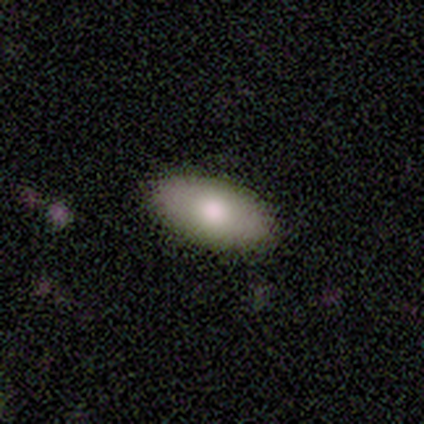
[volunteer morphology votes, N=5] smooth-or-featured: smooth: 60% | featured or disk: 40% | star or artifact: 0%
  how-rounded: in between: 100% | round: 0% | cigar-shaped: 0%
  merging: none: 100% | minor disturbance: 0% | major disturbance: 0% | merger: 0%